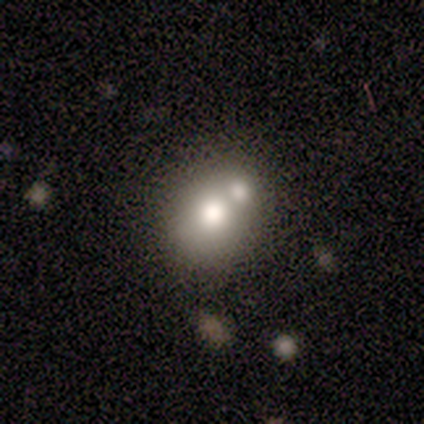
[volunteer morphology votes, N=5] Smooth or featured: smooth — 60% (featured or disk — 40%)
How rounded: round — 67% (in between — 33%)
Merging: merger — 80% (none — 20%)